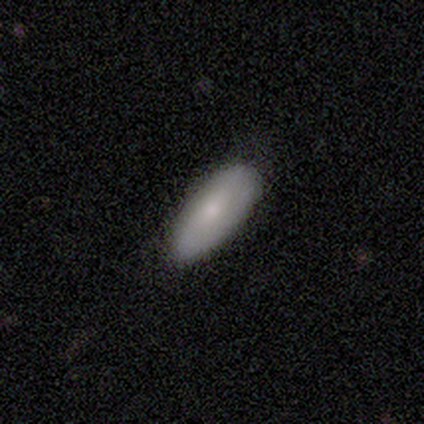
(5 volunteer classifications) This is clearly a smooth galaxy (100%). How rounded: clearly in between (100%). Merging: clearly none (80%).